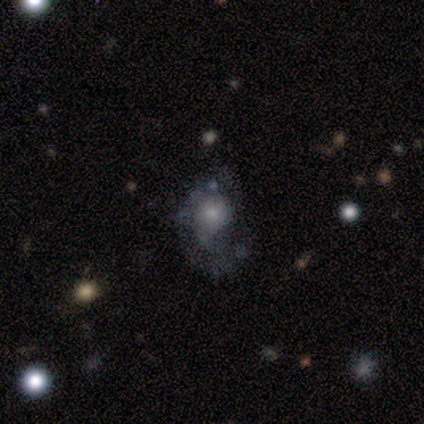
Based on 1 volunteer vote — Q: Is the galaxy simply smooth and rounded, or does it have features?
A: featured or disk — 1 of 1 (100%).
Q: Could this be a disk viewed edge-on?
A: no — 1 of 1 (100%).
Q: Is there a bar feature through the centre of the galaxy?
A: no — 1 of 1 (100%).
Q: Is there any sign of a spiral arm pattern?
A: no — 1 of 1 (100%).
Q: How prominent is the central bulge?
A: small — 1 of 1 (100%).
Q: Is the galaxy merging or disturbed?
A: major disturbance — 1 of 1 (100%).